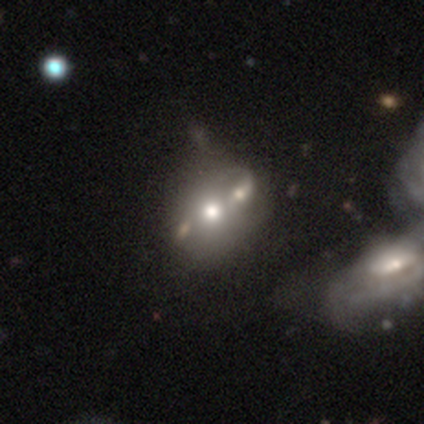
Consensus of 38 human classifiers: smooth-or-featured: featured or disk: 55% | smooth: 34% | star or artifact: 11%
  disk-edge-on: no: 100% | yes: 0%
    bar: no: 90% | strong: 10% | weak: 0%
    has-spiral-arms: no: 76% | yes: 24%
    bulge-size: moderate: 71% | small: 14% | large: 10% | dominant: 5% | none: 0%
  merging: merger: 38% | none: 18% | minor disturbance: 9% | major disturbance: 6%